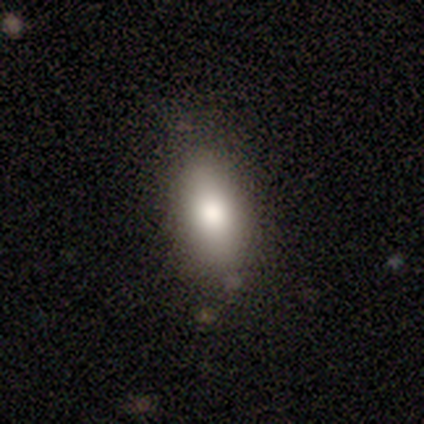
Overall: smooth (100%). How rounded: in between (100%). Merging: none (80%).